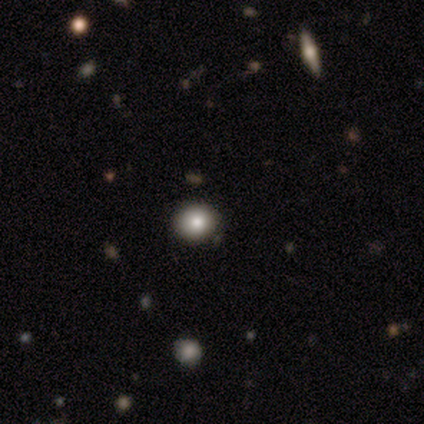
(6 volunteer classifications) Q: Smooth or featured?
A: smooth (83%); runner-up: star or artifact (17%)
Q: How rounded?
A: round (100%)
Q: Merging?
A: none (100%)